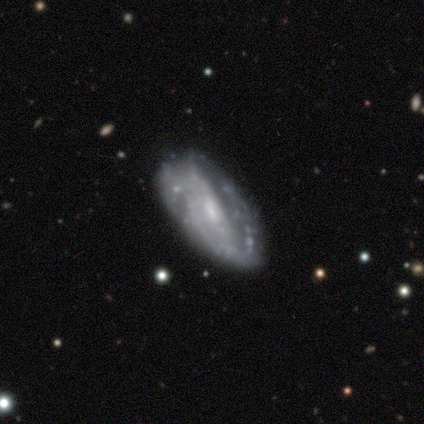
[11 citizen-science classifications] Morphology: type=featured or disk (73%); edge-on=no (88%); bar=weak (57%); spiral arms=no (57%); bulge=small (71%); merging=none (45%).